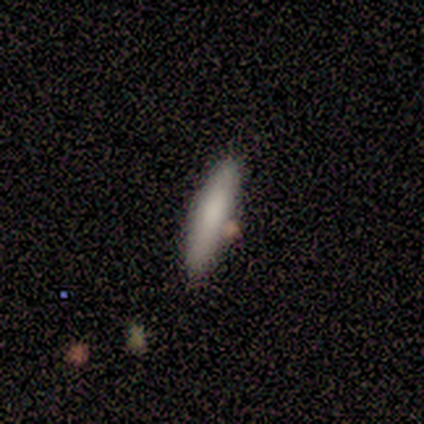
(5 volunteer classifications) smooth 80%, featured or disk 20%, star or artifact 0%. Down the decision tree: how rounded — cigar-shaped (100%); merging — minor disturbance (40%, tied with merger).